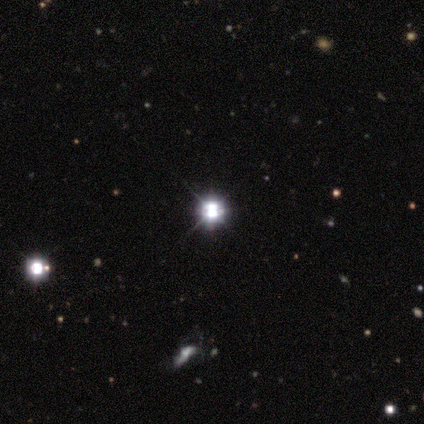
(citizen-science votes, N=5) This is clearly a star or artifact rather than a galaxy (80%).